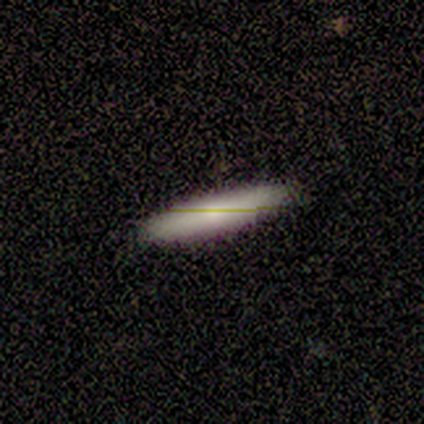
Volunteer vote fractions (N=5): smooth-or-featured: smooth: 60% | featured or disk: 20% | star or artifact: 20%
  how-rounded: cigar-shaped: 67% | in between: 33% | round: 0%
  merging: none: 75% | major disturbance: 25% | minor disturbance: 0% | merger: 0%